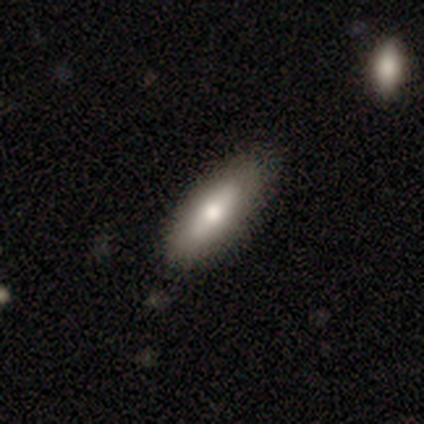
Morphology: type=smooth (40%, tied with featured or disk); roundness=in between (50%, tied with cigar-shaped); merging=none (75%).